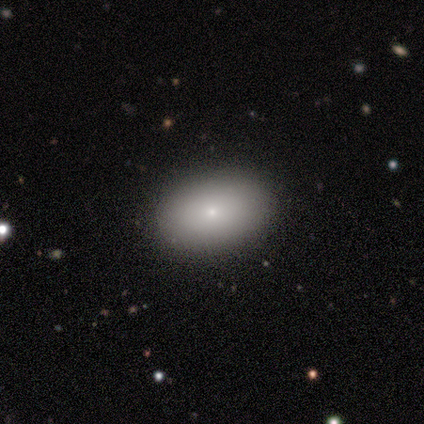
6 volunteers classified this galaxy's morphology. Smooth or featured? smooth (100%)
How rounded? in between (100%)
Merging? none (83%)